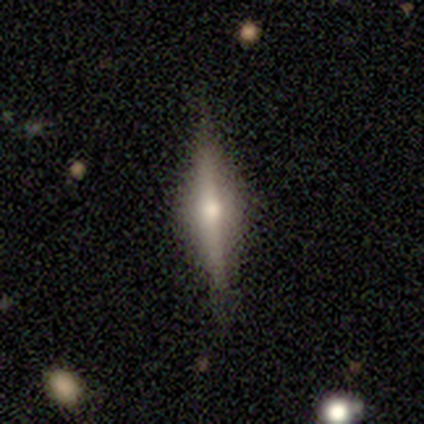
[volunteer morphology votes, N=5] This appears to be a featured or disk galaxy (100%) viewed edge-on (100%) with a rounded central bulge (80%). Merging: none (100%).